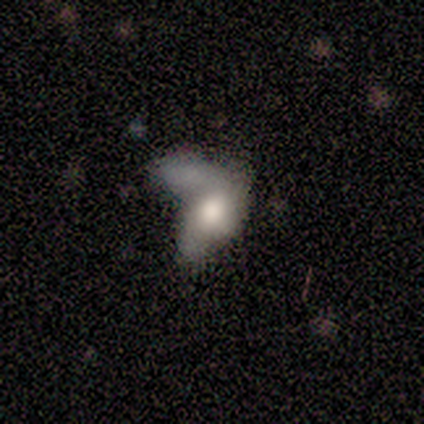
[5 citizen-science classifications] Volunteers were most divided on "smooth or featured": featured or disk: 60%, smooth: 40%, star or artifact: 0%. More confident: edge-on disk — no (100%); bar — no (100%); spiral arms — no (67%); bulge size — large (67%); merging — merger (60%).